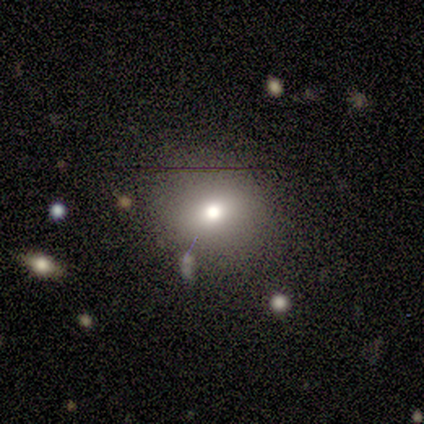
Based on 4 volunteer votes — This appears to be a smooth galaxy with no disk features (75%) that is in between round and cigar-shaped (67%). Merging: none (67%).